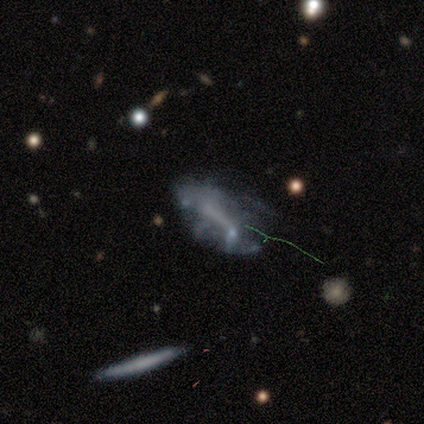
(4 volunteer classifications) This is possibly a featured or disk galaxy (50%). It is clearly not viewed edge-on (100%). Bar: clearly no (100%). Spiral arm pattern: possibly yes (50%, tied with no). Spiral arm count: clearly can't tell (100%). Spiral winding: clearly tight (100%). Central bulge: clearly none (100%). Merging: likely none (67%).